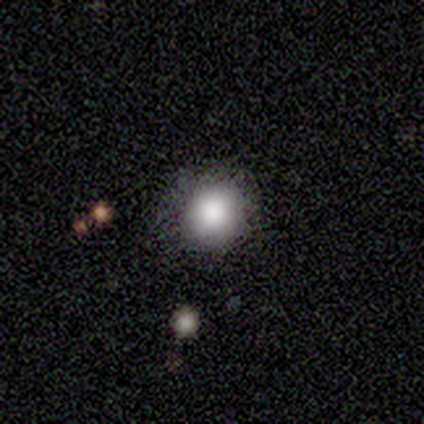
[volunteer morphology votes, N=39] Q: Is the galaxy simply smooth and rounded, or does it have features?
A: smooth — 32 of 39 (82%).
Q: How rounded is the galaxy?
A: round — 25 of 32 (78%).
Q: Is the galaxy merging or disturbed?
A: none — 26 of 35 (74%).